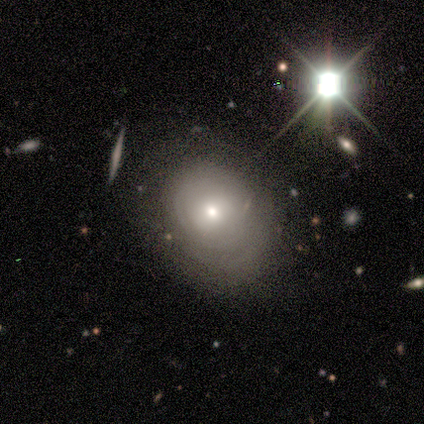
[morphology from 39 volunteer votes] Smooth or featured? 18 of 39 (46%) said featured or disk. Edge-on disk? 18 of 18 (100%) said no. Bar? 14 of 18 (78%) said no. Spiral arms? 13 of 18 (72%) said yes. Spiral winding? 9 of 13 (69%) said tight. Spiral arm count? 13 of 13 (100%) said can't tell. Bulge size? 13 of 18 (72%) said moderate. Merging? 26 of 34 (76%) said none.